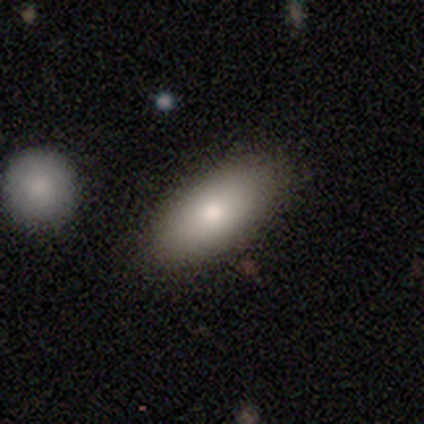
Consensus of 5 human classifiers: Smooth or featured? 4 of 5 (80%) said smooth. How rounded? 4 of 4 (100%) said in between. Merging? 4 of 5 (80%) said none.